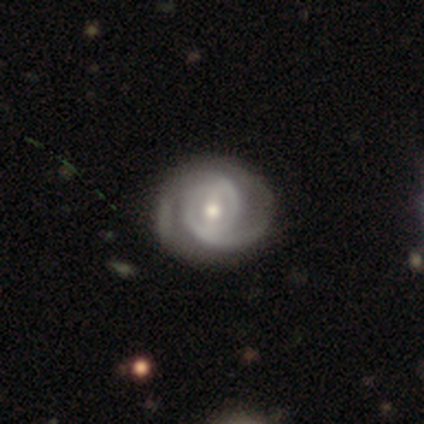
This appears to be a featured or disk galaxy (97%) with a weak bar (71%), 2 (79%) tight (50%) spiral arms (100%) and a moderate central bulge (66%). Merging: none (56%).